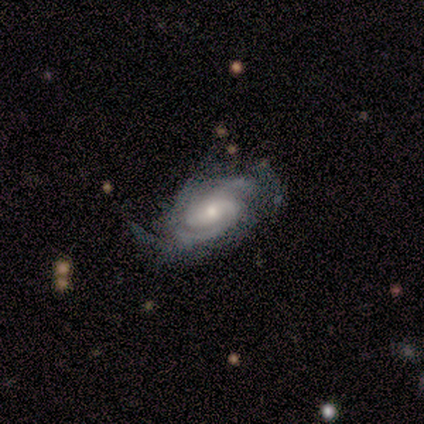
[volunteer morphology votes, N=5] A featured or disk galaxy (80%) with no bar (75%), medium (50%) spiral arms (100%) and a small central bulge (100%).

Vote fractions:
- Smooth or featured? featured or disk: 80% / smooth: 20% / star or artifact: 0%
- Edge-on disk? no: 100% / yes: 0%
- Bar? no: 75% / weak: 25% / strong: 0%
- Spiral arms? yes: 100% / no: 0%
- Spiral winding? medium: 50% / tight: 25% / loose: 25%
- Spiral arm count? can't tell: 50% / 2: 25% / 4: 25% / 1: 0% / 3: 0% / more than 4: 0%
- Bulge size? small: 100% / dominant: 0% / large: 0% / moderate: 0% / none: 0%
- Merging? none: 80% / merger: 20% / minor disturbance: 0% / major disturbance: 0%